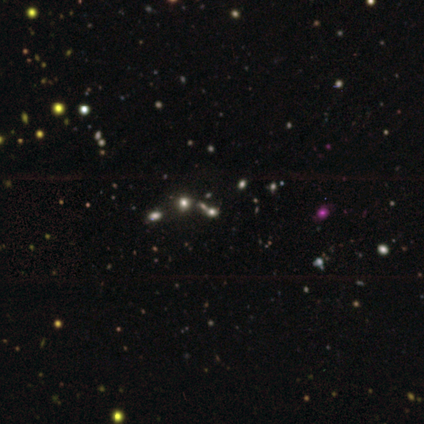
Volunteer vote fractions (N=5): Smooth or featured?
  - star or artifact: 80% *
  - smooth: 20%
  - featured or disk: 0%